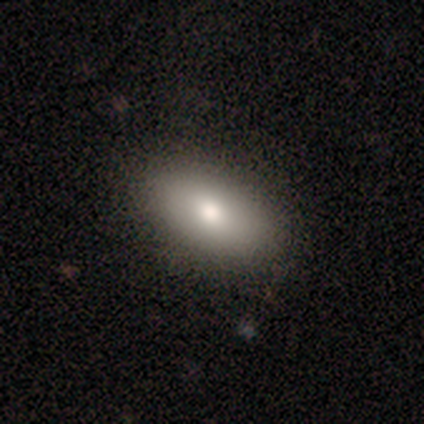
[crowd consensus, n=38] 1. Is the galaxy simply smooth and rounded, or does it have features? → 95% smooth, 3% featured or disk, 3% star or artifact.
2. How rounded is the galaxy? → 94% in between, 3% round, 3% cigar-shaped.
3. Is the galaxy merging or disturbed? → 86% none, 8% minor disturbance, 5% merger, 0% major disturbance.